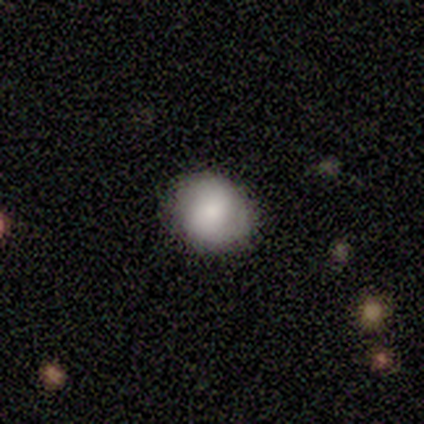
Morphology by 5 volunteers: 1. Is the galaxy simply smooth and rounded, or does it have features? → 80% smooth, 20% featured or disk, 0% star or artifact.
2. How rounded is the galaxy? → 75% round, 25% in between, 0% cigar-shaped.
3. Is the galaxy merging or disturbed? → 80% none, 20% minor disturbance, 0% major disturbance, 0% merger.